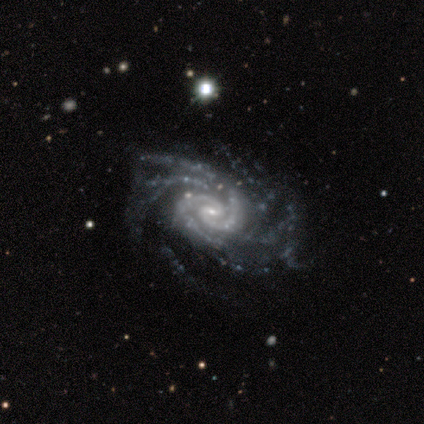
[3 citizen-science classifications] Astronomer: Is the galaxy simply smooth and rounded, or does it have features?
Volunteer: featured or disk — 100%.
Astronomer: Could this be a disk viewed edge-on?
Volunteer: no — 100%.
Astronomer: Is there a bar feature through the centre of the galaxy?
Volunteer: weak — 67%.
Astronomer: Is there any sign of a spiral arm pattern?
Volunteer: yes — 100%.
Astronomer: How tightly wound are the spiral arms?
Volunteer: medium — 67%.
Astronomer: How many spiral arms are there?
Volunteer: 4 — 33%, tied with more than 4 and can't tell at 33%.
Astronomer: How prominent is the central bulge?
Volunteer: small — 100%.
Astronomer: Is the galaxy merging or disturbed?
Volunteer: none — 67%.